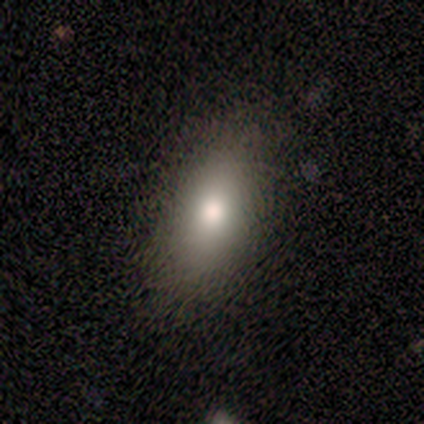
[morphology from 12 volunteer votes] This is clearly a smooth galaxy (83%). How rounded: possibly in between (50%). Merging: likely none (73%).